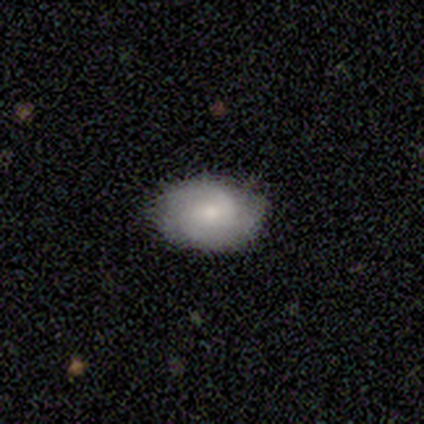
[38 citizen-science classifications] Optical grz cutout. It shows a smooth galaxy with no disk features (50%) that is in between round and cigar-shaped (74%). Merging: none (83%).